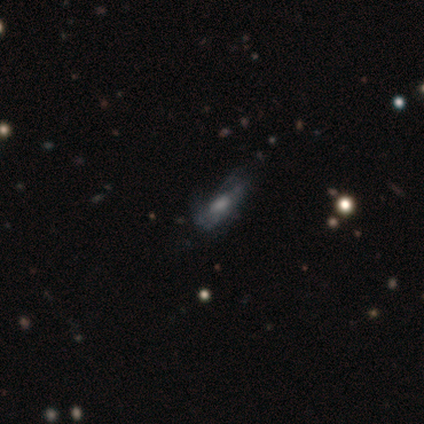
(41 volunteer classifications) Smooth or featured?
  - featured or disk: 63% *
  - smooth: 32%
  - star or artifact: 5%
Edge-on disk?
  - no: 88% *
  - yes: 12%
Bar?
  - no: 83% *
  - strong: 9%
  - weak: 9%
Spiral arms?
  - no: 52% *
  - yes: 48%
Bulge size?
  - large: 30% * (tied)
  - none: 30% * (tied)
  - small: 22%
  - moderate: 17%
  - dominant: 0%
Merging?
  - none: 49% *
  - minor disturbance: 33%
  - major disturbance: 18%
  - merger: 0%